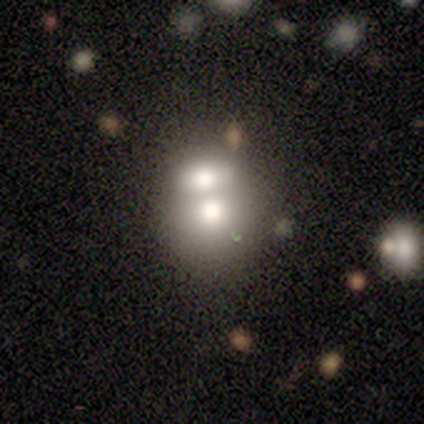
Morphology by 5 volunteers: type=smooth (60%); roundness=round (67%); merging=merger (60%).